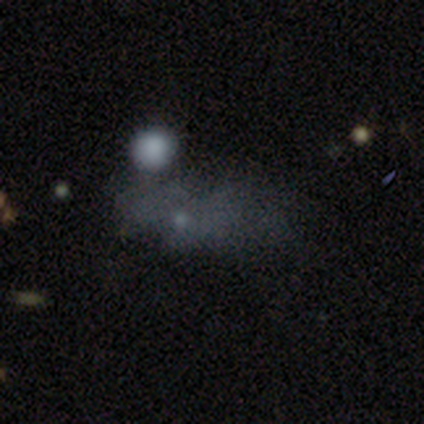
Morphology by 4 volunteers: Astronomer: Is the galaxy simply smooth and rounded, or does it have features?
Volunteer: star or artifact — 100%.